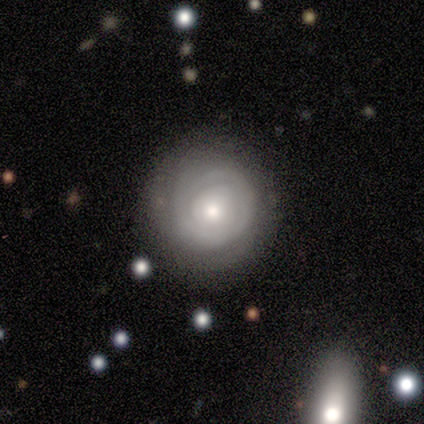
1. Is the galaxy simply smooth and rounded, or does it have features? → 60% featured or disk, 40% smooth, 0% star or artifact.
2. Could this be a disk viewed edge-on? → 100% no, 0% yes.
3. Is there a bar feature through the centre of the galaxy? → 100% no, 0% strong, 0% weak.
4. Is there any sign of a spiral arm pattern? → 100% yes, 0% no.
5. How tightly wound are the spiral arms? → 100% tight, 0% medium, 0% loose.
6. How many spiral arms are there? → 33% 1 (tied), 33% 2 (tied), 33% can't tell (tied), 0% 3, 0% 4, 0% more than 4.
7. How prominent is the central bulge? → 67% moderate, 33% small, 0% dominant, 0% large, 0% none.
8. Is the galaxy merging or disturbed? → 80% none, 20% major disturbance, 0% minor disturbance, 0% merger.